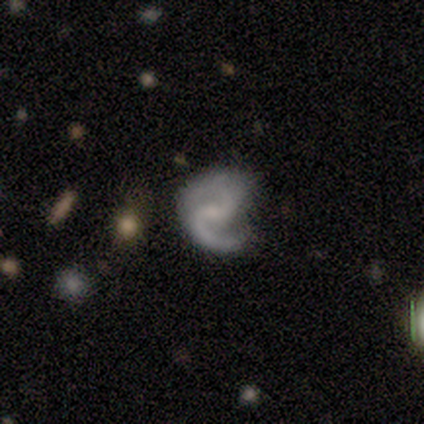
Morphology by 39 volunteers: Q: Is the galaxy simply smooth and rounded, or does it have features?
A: featured or disk — 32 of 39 (82%).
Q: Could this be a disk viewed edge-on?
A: no — 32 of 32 (100%).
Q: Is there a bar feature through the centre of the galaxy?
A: weak — 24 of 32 (75%).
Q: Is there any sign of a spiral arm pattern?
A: yes — 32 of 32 (100%).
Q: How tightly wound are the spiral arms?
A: medium — 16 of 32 (50%).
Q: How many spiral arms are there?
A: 2 — 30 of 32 (94%).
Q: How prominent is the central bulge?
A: small — 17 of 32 (53%).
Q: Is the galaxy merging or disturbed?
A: none — 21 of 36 (58%).